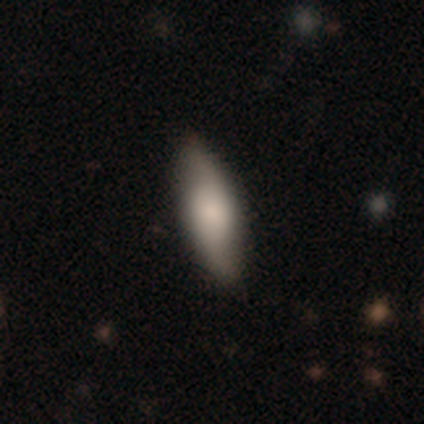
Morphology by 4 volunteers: Volunteers were most divided on "smooth or featured": smooth: 75%, featured or disk: 25%, star or artifact: 0%. More confident: how rounded — in between (100%); merging — none (100%).